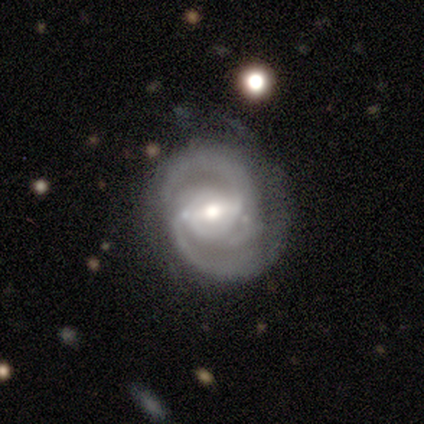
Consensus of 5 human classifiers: A featured or disk galaxy (100%) with a strong bar (75%), 2 (75%) medium (100%) spiral arms (100%) and a small central bulge (50%).

Vote fractions:
- Smooth or featured? featured or disk: 100% / smooth: 0% / star or artifact: 0%
- Edge-on disk? no: 80% / yes: 20%
- Bar? strong: 75% / weak: 25% / no: 0%
- Spiral arms? yes: 100% / no: 0%
- Spiral winding? medium: 100% / tight: 0% / loose: 0%
- Spiral arm count? 2: 75% / 3: 25% / 1: 0% / 4: 0% / more than 4: 0% / can't tell: 0%
- Bulge size? small: 50% / large: 25% / moderate: 25% / dominant: 0% / none: 0%
- Merging? none: 60% / minor disturbance: 40% / major disturbance: 0% / merger: 0%